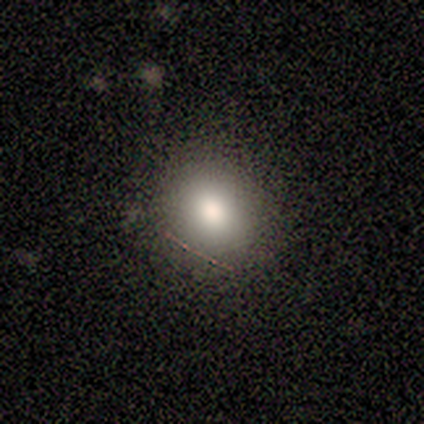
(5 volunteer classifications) Smooth or featured? smooth (100%)
How rounded? round (80%)
Merging? none (80%)